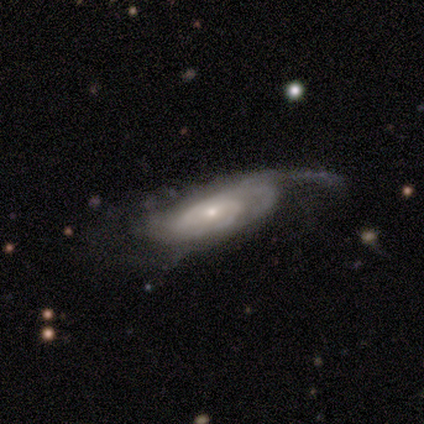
smooth-or-featured: featured or disk: 77% | smooth: 17% | star or artifact: 6%
  disk-edge-on: no: 85% | yes: 15%
    bar: no: 68% | weak: 26% | strong: 6%
    has-spiral-arms: yes: 82% | no: 18%
      spiral-winding: tight: 46% | medium: 32% | loose: 21%
      spiral-arm-count: can't tell: 32% | 3: 25% | 2: 21% | 1: 11% | 4: 7% | more than 4: 4%
    bulge-size: small: 59% | moderate: 41% | dominant: 0% | large: 0% | none: 0%
  merging: minor disturbance: 41% | none: 37% | major disturbance: 20% | merger: 2%